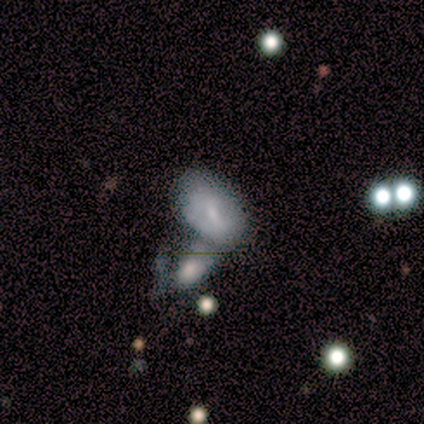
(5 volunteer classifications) Overall: smooth (60%; featured or disk 40%). How rounded: in between (100%). Merging: none (60%; minor disturbance 20%).